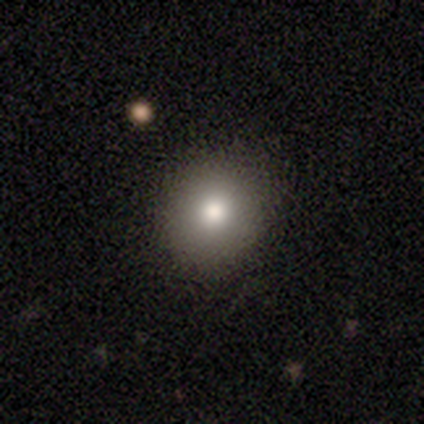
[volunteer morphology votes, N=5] Smooth or featured? smooth (80%)
How rounded? round (100%)
Merging? none (100%)